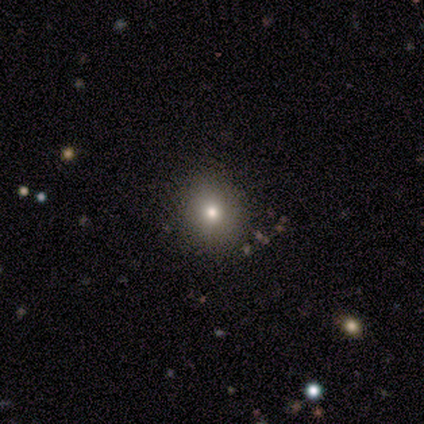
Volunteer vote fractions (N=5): A smooth galaxy with no disk features (80%) that is round (100%). Merging: none (80%).